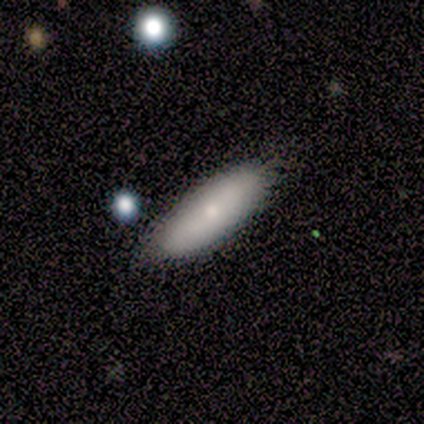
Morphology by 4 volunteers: Smooth or featured?
  - smooth: 100% *
  - featured or disk: 0%
  - star or artifact: 0%
How rounded?
  - in between: 75% *
  - cigar-shaped: 25%
  - round: 0%
Merging?
  - none: 100% *
  - minor disturbance: 0%
  - major disturbance: 0%
  - merger: 0%